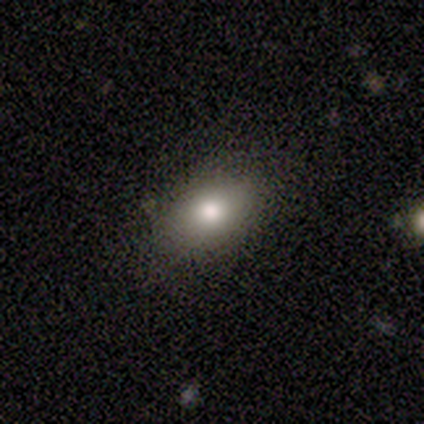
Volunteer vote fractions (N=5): smooth-or-featured: smooth: 100% | featured or disk: 0% | star or artifact: 0%
  how-rounded: in between: 80% | cigar-shaped: 20% | round: 0%
  merging: none: 100% | minor disturbance: 0% | major disturbance: 0% | merger: 0%